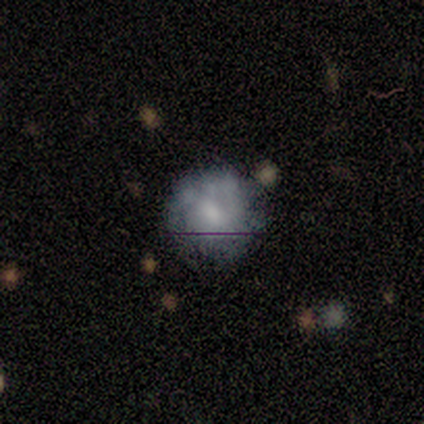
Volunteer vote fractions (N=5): This is likely a featured or disk galaxy (60%). It is clearly not viewed edge-on (100%). Bar: likely no (67%). Spiral arm pattern: likely no (67%). Central bulge: marginally moderate (33%, tied with small and none). Merging: clearly none (80%).